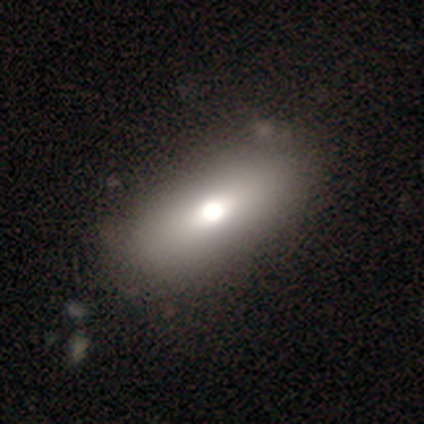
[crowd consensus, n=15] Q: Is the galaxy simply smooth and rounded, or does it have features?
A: smooth — 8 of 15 (53%).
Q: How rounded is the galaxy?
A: in between — 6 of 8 (75%).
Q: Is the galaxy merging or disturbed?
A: none — 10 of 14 (71%).